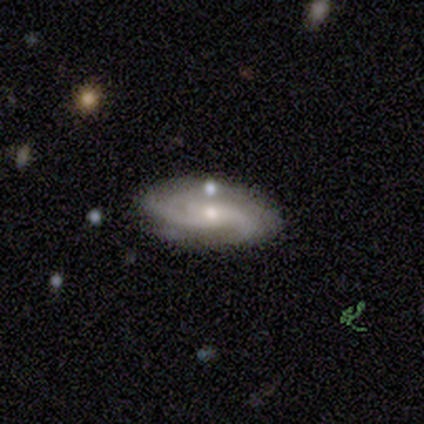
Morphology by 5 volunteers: A featured or disk galaxy (80%) with no bar (67%), 2 (33%, tied with 3 and can't tell) tight (33%, tied with medium and loose) spiral arms (100%) and a small central bulge (100%). Merging: none (100%).